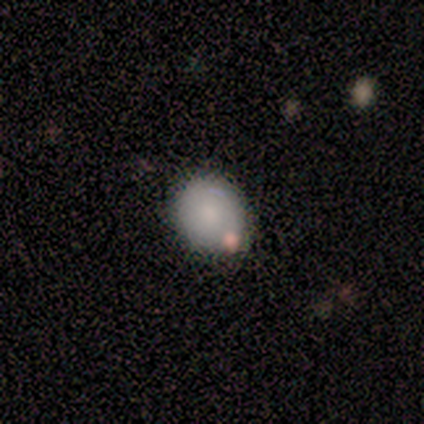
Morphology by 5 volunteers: Smooth or featured? smooth (100%)
How rounded? round (60%)
Merging? none (100%)